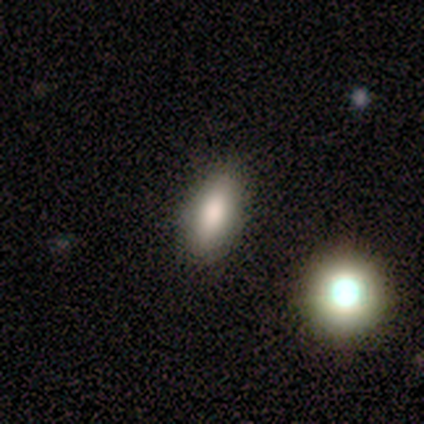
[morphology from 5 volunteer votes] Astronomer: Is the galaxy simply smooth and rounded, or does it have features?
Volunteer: smooth — 100%.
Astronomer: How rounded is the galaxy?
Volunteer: in between — 80%.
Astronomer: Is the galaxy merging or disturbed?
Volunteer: merger — 60% (runner-up: none, 40%).